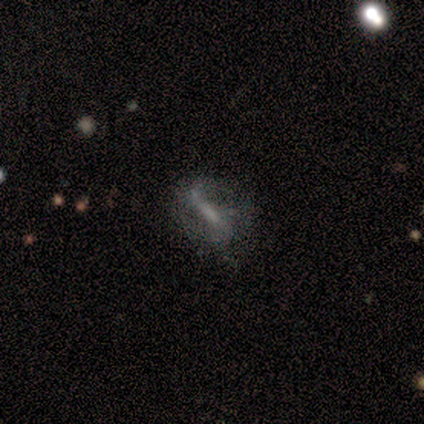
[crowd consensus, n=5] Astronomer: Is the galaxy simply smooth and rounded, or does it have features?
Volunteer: featured or disk — 100%.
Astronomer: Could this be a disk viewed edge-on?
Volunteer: no — 100%.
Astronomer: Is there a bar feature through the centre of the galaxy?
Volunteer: strong — 40%, tied with no at 40%.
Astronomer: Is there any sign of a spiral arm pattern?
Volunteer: yes — 80%.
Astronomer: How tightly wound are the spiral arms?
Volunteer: medium — 100%.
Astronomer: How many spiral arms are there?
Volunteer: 2 — 75%.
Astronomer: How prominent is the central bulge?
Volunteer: none — 60% (runner-up: small, 40%).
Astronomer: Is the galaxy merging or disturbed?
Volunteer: none — 40%, tied with minor disturbance at 40%.